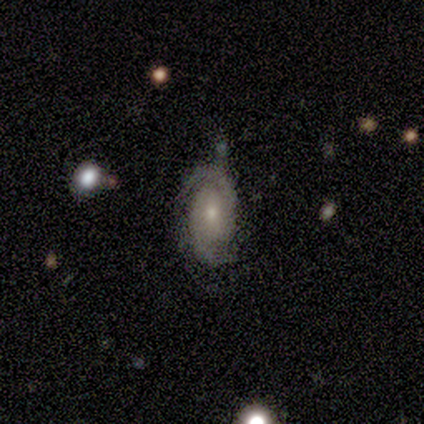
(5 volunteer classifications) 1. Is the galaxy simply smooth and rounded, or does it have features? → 80% featured or disk, 20% star or artifact, 0% smooth.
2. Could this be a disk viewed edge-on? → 75% no, 25% yes.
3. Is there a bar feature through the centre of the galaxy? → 100% no, 0% strong, 0% weak.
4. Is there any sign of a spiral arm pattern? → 100% yes, 0% no.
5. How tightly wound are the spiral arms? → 67% tight, 33% medium, 0% loose.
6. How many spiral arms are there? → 100% 2, 0% 1, 0% 3, 0% 4, 0% more than 4, 0% can't tell.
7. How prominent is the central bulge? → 67% moderate, 33% small, 0% dominant, 0% large, 0% none.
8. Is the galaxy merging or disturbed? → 75% none, 25% minor disturbance, 0% major disturbance, 0% merger.